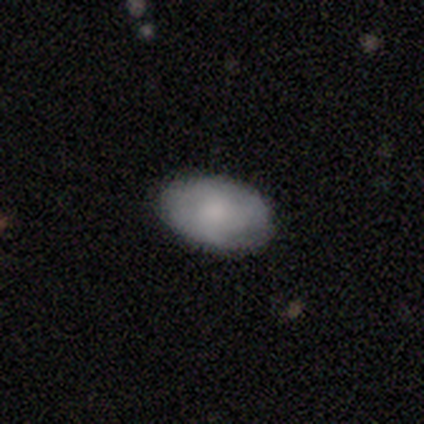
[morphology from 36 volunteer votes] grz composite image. It shows a smooth galaxy with no disk features (78%) that is in between round and cigar-shaped (93%). Merging: none (86%).